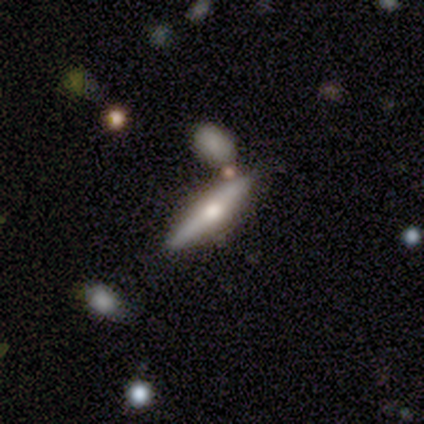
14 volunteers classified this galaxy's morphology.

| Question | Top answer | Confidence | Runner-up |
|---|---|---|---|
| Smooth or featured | featured or disk | 79% | smooth (21%) |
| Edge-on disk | yes | 91% | no (9%) |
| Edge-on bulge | rounded | 90% | none (10%) |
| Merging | none | 86% | minor disturbance (7%) |